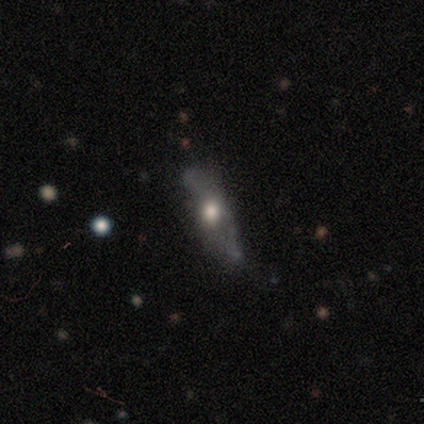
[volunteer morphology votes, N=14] smooth 43% (tied), featured or disk 43% (tied), star or artifact 14%. Down the decision tree: how rounded — cigar-shaped (67%); merging — none (50%).